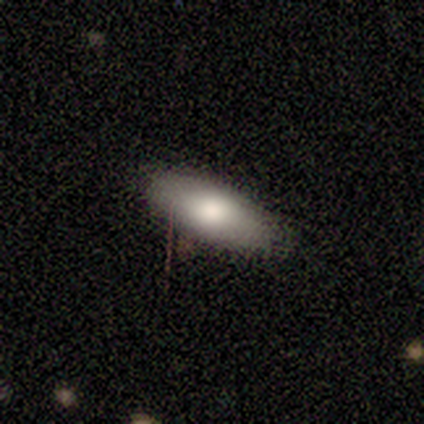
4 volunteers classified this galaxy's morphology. Overall: smooth (100%). How rounded: in between (100%). Merging: none (75%).